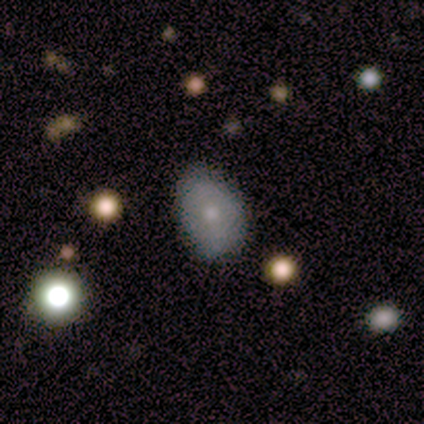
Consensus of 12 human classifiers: smooth-or-featured: smooth: 67% | featured or disk: 33% | star or artifact: 0%
  how-rounded: in between: 88% | round: 12% | cigar-shaped: 0%
  merging: none: 83% | minor disturbance: 17% | major disturbance: 0% | merger: 0%